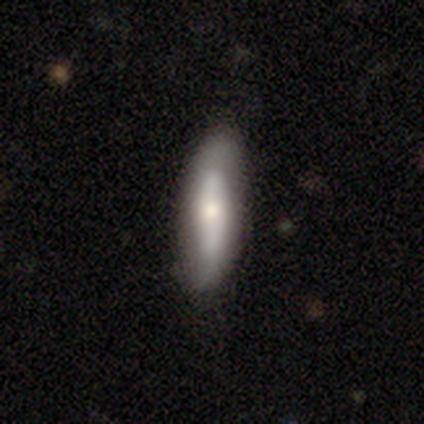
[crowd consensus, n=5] Volunteers were most divided on "bar" (2-way tie): strong: 50%, no: 50%, weak: 0%; "spiral arms" (2-way tie): yes: 50%, no: 50%. More confident: spiral winding — tight (100%); spiral arm count — 2 (100%); bulge size — moderate (100%); merging — none (100%); edge-on disk — no (67%); smooth or featured — featured or disk (60%).